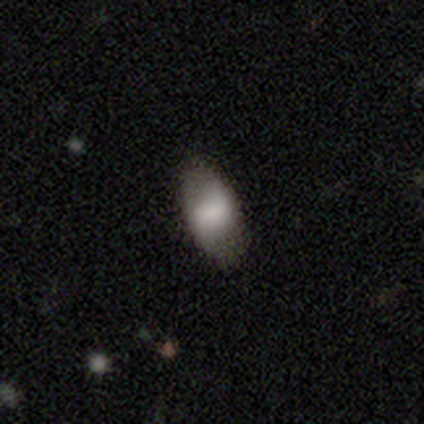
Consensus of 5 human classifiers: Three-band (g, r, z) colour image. It shows a featured or disk galaxy (80%) with no bar (67%), no spiral arms (67%) and a moderate central bulge (67%). Merging: none (60%).